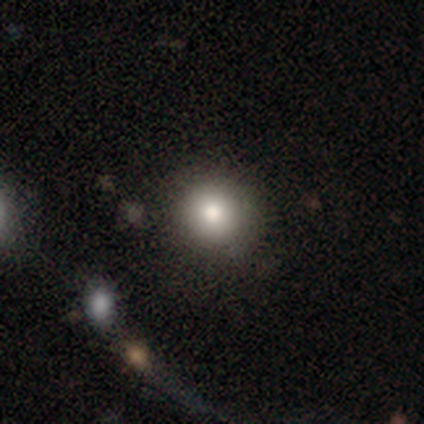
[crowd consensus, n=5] Morphology: type=smooth (80%); roundness=round (100%); merging=none (75%).